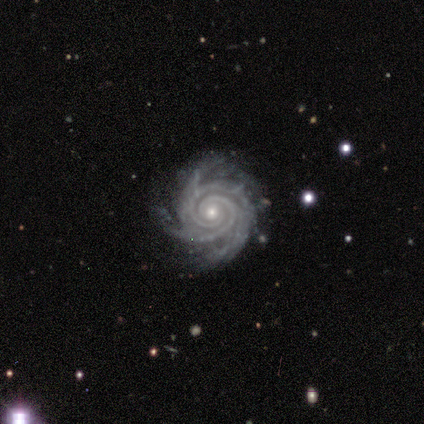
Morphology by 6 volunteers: A featured or disk galaxy (100%) with no bar (100%), 3 (33%) tight (100%) spiral arms (100%) and a small central bulge (67%).

Vote fractions:
- Smooth or featured? featured or disk: 100% / smooth: 0% / star or artifact: 0%
- Edge-on disk? no: 100% / yes: 0%
- Bar? no: 100% / strong: 0% / weak: 0%
- Spiral arms? yes: 100% / no: 0%
- Spiral winding? tight: 100% / medium: 0% / loose: 0%
- Spiral arm count? 3: 33% / 2: 17% / 4: 17% / more than 4: 17% / can't tell: 17% / 1: 0%
- Bulge size? small: 67% / moderate: 33% / dominant: 0% / large: 0% / none: 0%
- Merging? none: 67% / minor disturbance: 17% / major disturbance: 17% / merger: 0%